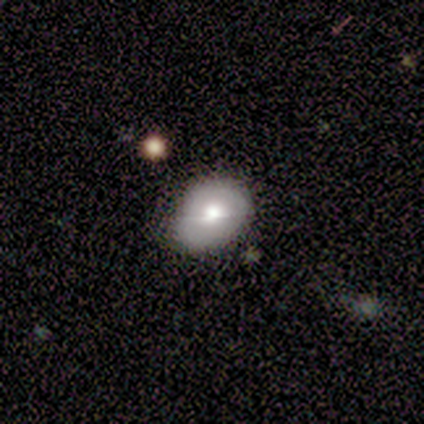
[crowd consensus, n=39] This is likely a smooth galaxy (74%). How rounded: likely in between (69%). Merging: likely none (68%).